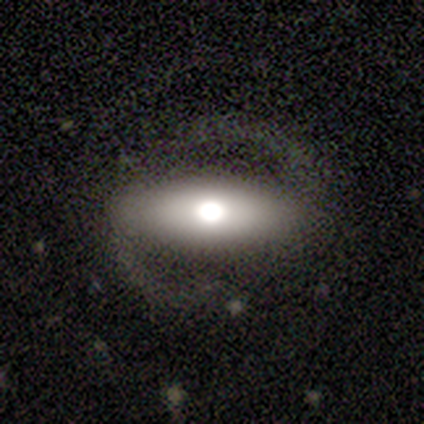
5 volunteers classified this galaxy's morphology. A featured or disk galaxy (100%) with a strong bar (40%, tied with no), 2 (100%) tight (40%, tied with loose) spiral arms (100%) and a moderate central bulge (80%). Merging: none (80%).